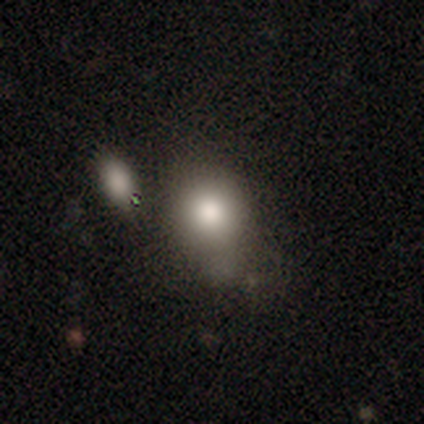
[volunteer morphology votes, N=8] type=smooth (88%); roundness=in between (71%); merging=minor disturbance (62%).